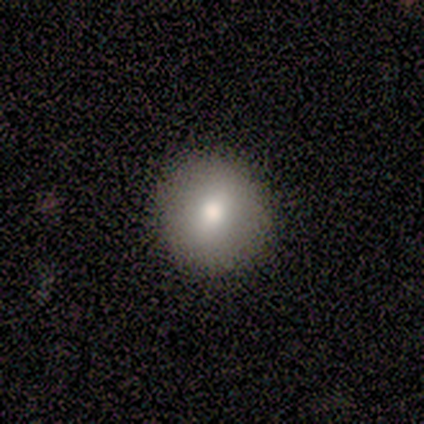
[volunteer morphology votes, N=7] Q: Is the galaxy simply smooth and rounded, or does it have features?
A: smooth — 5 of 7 (71%).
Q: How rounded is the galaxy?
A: round — 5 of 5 (100%).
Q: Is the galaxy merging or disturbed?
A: none — 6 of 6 (100%).